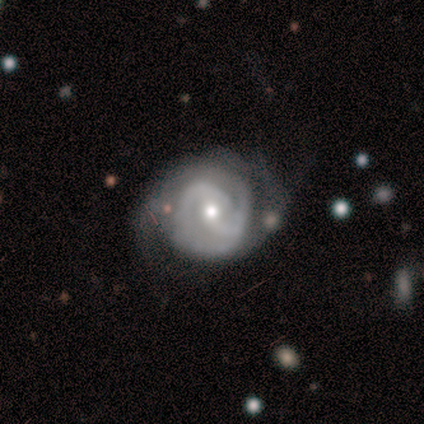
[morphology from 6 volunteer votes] Smooth or featured: featured or disk — 100%
Edge-on disk: no — 100%
Bar: no — 50% (weak — 33%)
Spiral arms: yes — 100%
Spiral winding: tight — 67% (medium — 33%)
Spiral arm count: 2 — 83% (can't tell — 17%)
Bulge size: small — 67% (moderate — 33%)
Merging: none — 67% (minor disturbance — 33%)